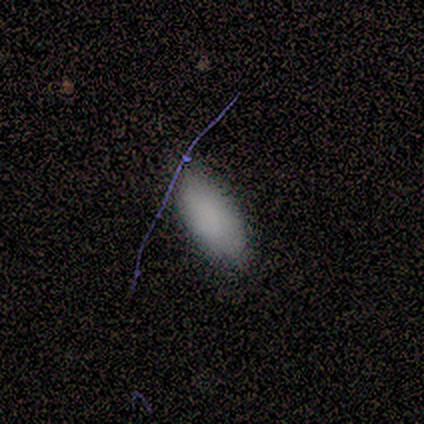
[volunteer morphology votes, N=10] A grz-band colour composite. It shows a smooth galaxy with no disk features (70%) that is in between round and cigar-shaped (100%). Merging: none (70%).